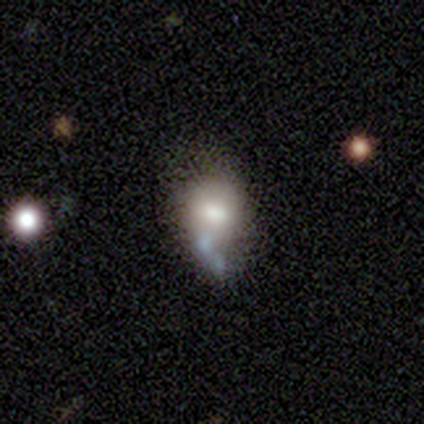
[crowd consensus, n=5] Smooth or featured? smooth (80%)
How rounded? round (50%, tied with in between)
Merging? none (100%)